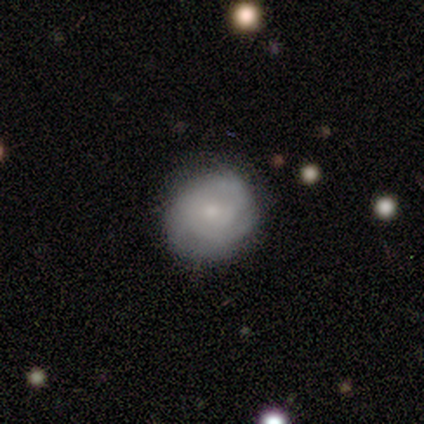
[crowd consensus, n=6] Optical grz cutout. It shows a featured or disk galaxy (50%) with no bar (100%), tight (67%) spiral arms (100%) and a small central bulge (100%). Merging: none (100%).